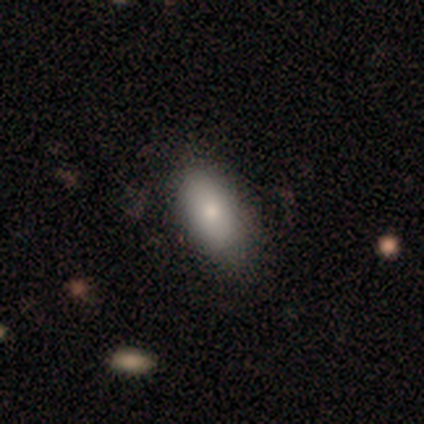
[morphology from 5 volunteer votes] smooth_or_featured: smooth (p=1.00)
how_rounded: in between (p=1.00)
merging: none (p=1.00)